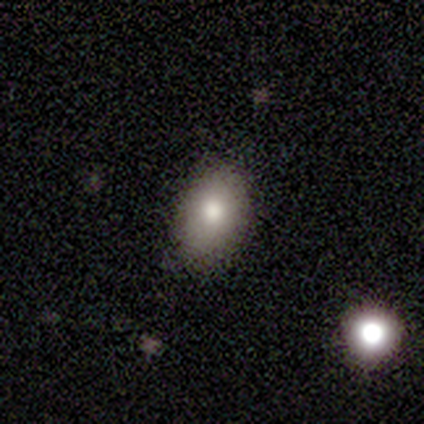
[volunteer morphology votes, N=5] Smooth or featured? 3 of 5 (60%) said smooth. How rounded? 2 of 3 (67%) said in between. Merging? 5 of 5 (100%) said none.